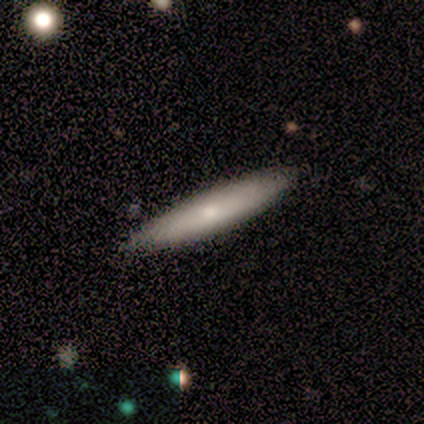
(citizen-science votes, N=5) Overall: smooth (60%; featured or disk 40%). How rounded: cigar-shaped (67%; in between 33%). Merging: none (100%).